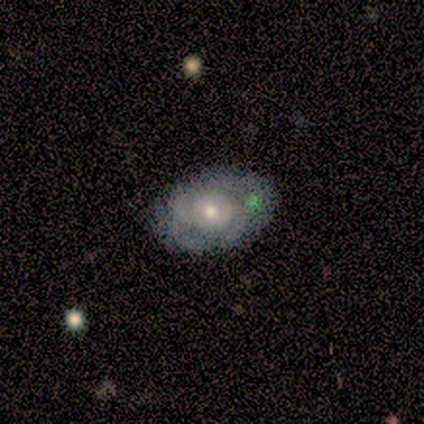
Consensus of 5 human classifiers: Morphology: type=featured or disk (80%); edge-on=no (100%); bar=no (100%); spiral arms=yes (50%, tied with no); winding=tight (50%, tied with medium); arm count=can't tell (100%); bulge=moderate (75%); merging=none (80%).